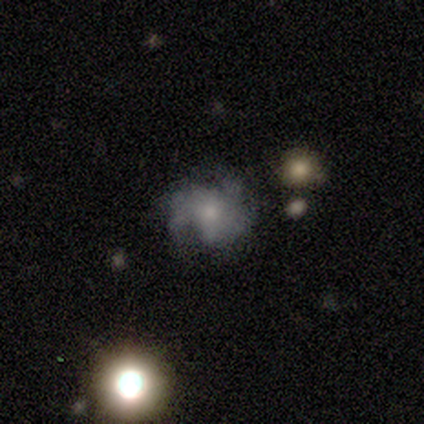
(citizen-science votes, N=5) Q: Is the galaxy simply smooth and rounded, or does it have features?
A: featured or disk — 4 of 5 (80%).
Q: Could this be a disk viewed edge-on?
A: no — 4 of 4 (100%).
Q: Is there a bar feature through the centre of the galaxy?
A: no — 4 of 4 (100%).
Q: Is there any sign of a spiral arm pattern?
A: yes — 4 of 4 (100%).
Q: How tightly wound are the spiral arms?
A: medium — 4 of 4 (100%).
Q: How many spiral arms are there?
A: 3 — 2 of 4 (50%).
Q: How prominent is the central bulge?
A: moderate — 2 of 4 (50%).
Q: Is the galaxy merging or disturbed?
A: none — 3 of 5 (60%).